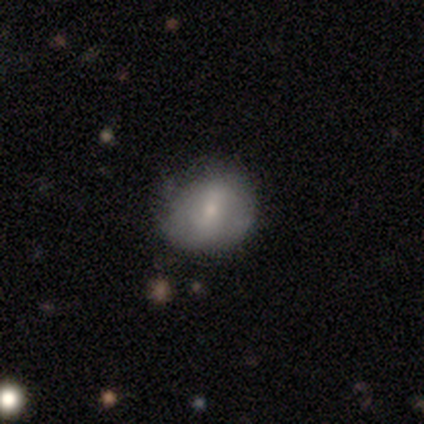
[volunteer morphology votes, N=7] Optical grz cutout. It shows a featured or disk galaxy (57%) with a weak bar (50%, tied with no), tight (50%, tied with medium) spiral arms (50%, tied with no) and a moderate central bulge (75%). Merging: none (57%).